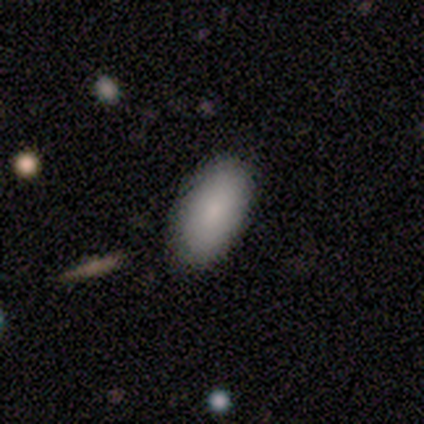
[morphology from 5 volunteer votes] smooth_or_featured: smooth (p=0.80) [alt: featured or disk p=0.20]
how_rounded: in between (p=0.75) [alt: round p=0.25]
merging: none (p=0.80) [alt: minor disturbance p=0.20]